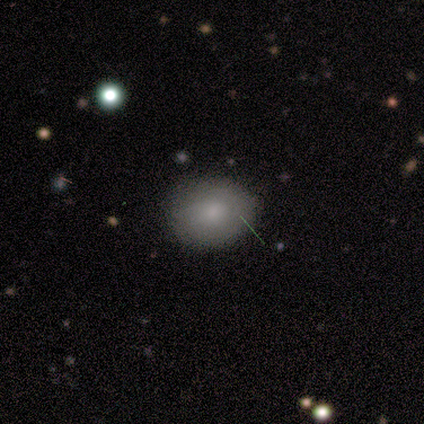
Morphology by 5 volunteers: Overall: smooth (100%). How rounded: in between (80%). Merging: none (60%; minor disturbance 40%).